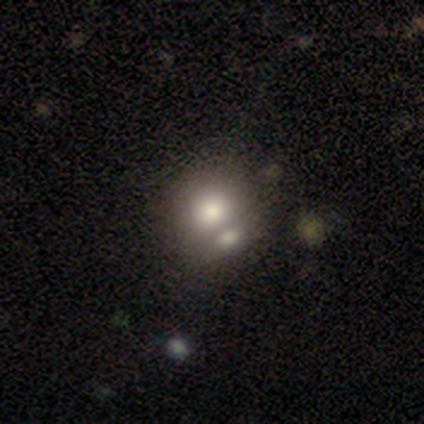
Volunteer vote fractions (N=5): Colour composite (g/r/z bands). It shows a smooth galaxy with no disk features (60%) that is round (100%). Merging: none (60%).